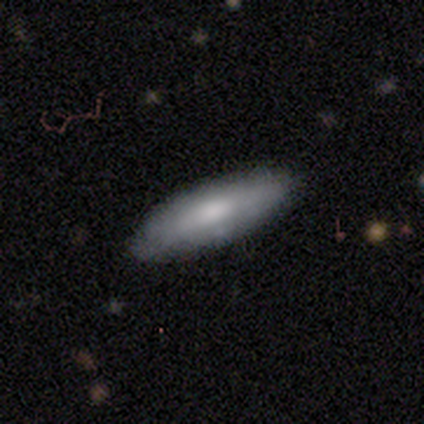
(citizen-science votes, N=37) Volunteers were most divided on "how rounded": cigar-shaped: 58%, in between: 42%, round: 0%. More confident: smooth or featured — smooth (65%); merging — none (63%).